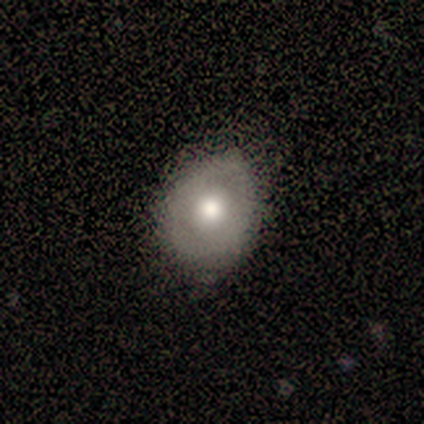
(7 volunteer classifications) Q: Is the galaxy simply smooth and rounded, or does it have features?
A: smooth — 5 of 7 (71%).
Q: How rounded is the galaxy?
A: round — 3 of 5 (60%).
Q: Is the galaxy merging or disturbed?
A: none — 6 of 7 (86%).